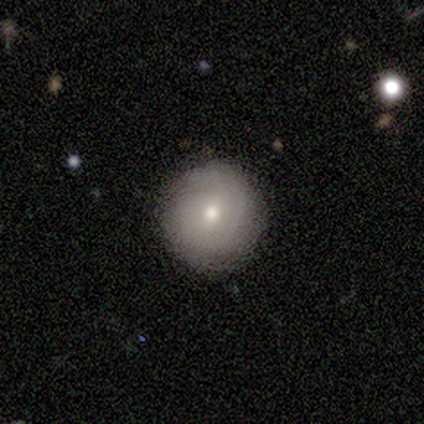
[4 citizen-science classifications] Smooth or featured: featured or disk — 75% (smooth — 25%)
Edge-on disk: no — 100%
Bar: weak — 67% (no — 33%)
Spiral arms: yes — 67% (no — 33%)
Spiral winding: tight — 100%
Spiral arm count: 1 — 50% (tied with 2 — 50%)
Bulge size: moderate — 100%
Merging: none — 100%